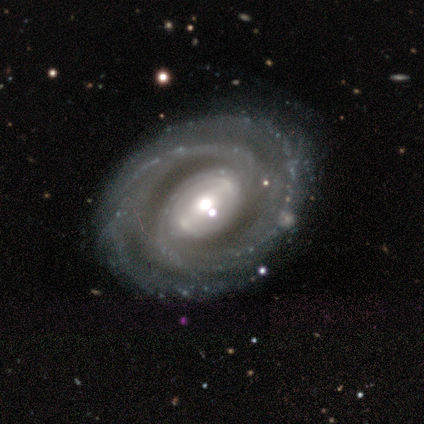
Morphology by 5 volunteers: smooth-or-featured: featured or disk: 80% | star or artifact: 20% | smooth: 0%
  disk-edge-on: no: 100% | yes: 0%
    bar: weak: 75% | strong: 25% | no: 0%
    has-spiral-arms: yes: 100% | no: 0%
      spiral-winding: tight: 100% | medium: 0% | loose: 0%
      spiral-arm-count: 2: 50% | 3: 25% | 4: 25% | 1: 0% | more than 4: 0% | can't tell: 0%
    bulge-size: moderate: 75% | small: 25% | dominant: 0% | large: 0% | none: 0%
  merging: none: 75% | minor disturbance: 25% | major disturbance: 0% | merger: 0%